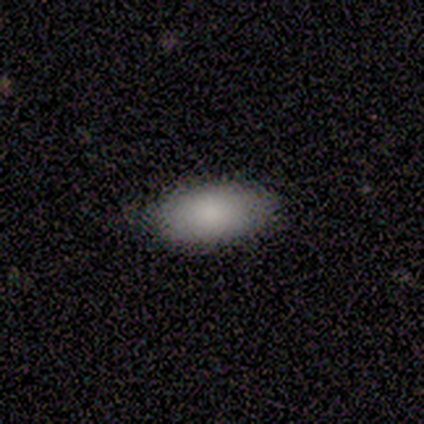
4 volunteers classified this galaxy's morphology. A smooth galaxy with no disk features (100%) that is in between round and cigar-shaped (100%).

Vote fractions:
- Smooth or featured? smooth: 100% / featured or disk: 0% / star or artifact: 0%
- How rounded? in between: 100% / round: 0% / cigar-shaped: 0%
- Merging? none: 100% / minor disturbance: 0% / major disturbance: 0% / merger: 0%